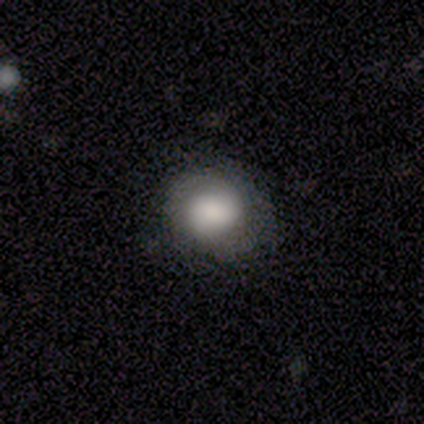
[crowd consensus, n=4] Smooth or featured?
  - smooth: 75% *
  - star or artifact: 25%
  - featured or disk: 0%
How rounded?
  - round: 67% *
  - in between: 33%
  - cigar-shaped: 0%
Merging?
  - none: 67% *
  - minor disturbance: 33%
  - major disturbance: 0%
  - merger: 0%